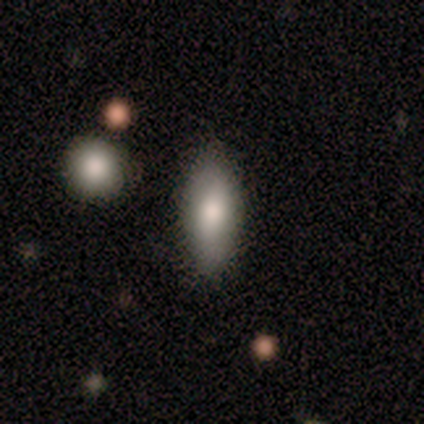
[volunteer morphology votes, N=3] Smooth or featured: smooth — 100%
How rounded: in between — 100%
Merging: none — 67% (merger — 33%)